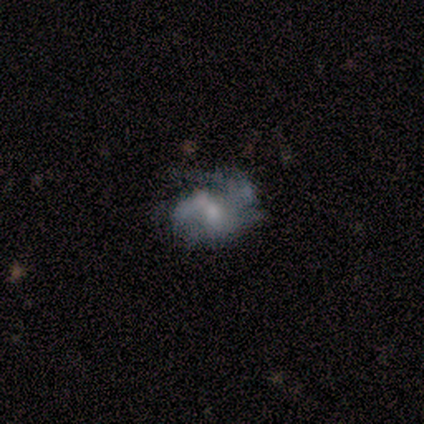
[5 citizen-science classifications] A featured or disk galaxy (80%) with no bar (100%), no spiral arms (75%) and a small central bulge (75%).

Vote fractions:
- Smooth or featured? featured or disk: 80% / smooth: 20% / star or artifact: 0%
- Edge-on disk? no: 100% / yes: 0%
- Bar? no: 100% / strong: 0% / weak: 0%
- Spiral arms? no: 75% / yes: 25%
- Bulge size? small: 75% / none: 25% / dominant: 0% / large: 0% / moderate: 0%
- Merging? major disturbance: 60% / none: 20% / minor disturbance: 20% / merger: 0%